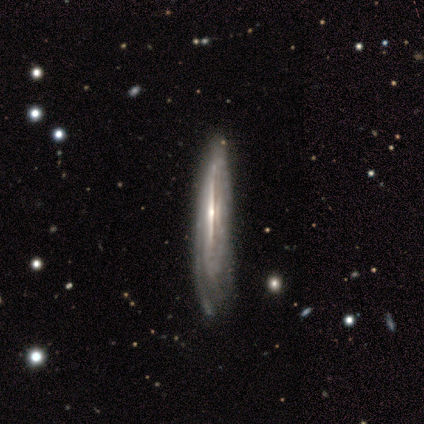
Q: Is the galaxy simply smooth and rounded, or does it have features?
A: featured or disk — 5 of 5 (100%).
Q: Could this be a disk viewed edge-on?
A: yes — 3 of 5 (60%).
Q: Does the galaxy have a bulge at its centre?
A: rounded — 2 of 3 (67%).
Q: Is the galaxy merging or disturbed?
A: minor disturbance — 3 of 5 (60%).